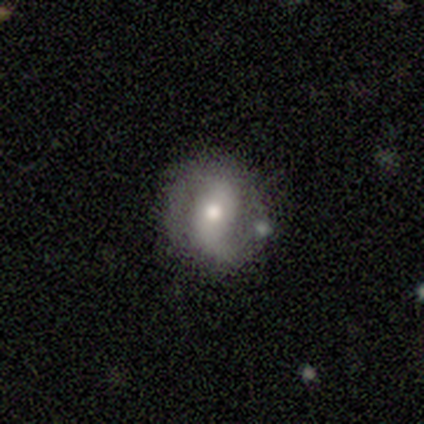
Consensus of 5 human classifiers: This is likely a featured or disk galaxy (60%). It is clearly not viewed edge-on (100%). Bar: likely weak (67%). Spiral arm pattern: likely no (67%). Central bulge: likely moderate (67%). Merging: clearly minor disturbance (80%).